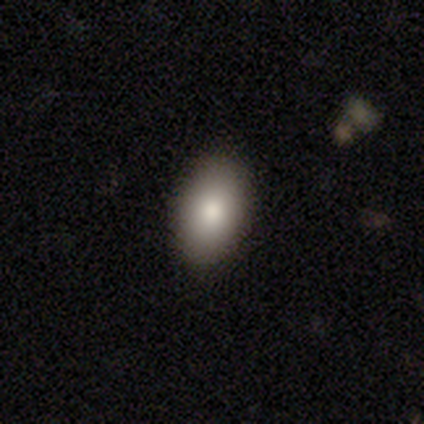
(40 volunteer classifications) Smooth or featured? smooth (88%)
How rounded? in between (86%)
Merging? none (90%)